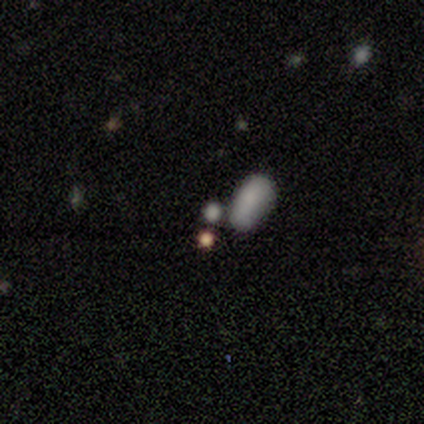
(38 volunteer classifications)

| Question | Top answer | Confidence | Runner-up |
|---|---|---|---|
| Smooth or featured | smooth | 76% | star or artifact (16%) |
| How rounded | in between | 76% | round (24%) |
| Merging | none | 62% | merger (19%) |